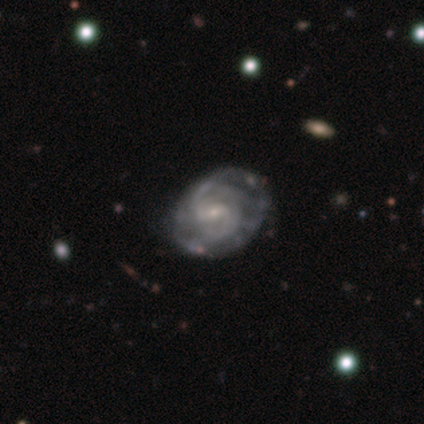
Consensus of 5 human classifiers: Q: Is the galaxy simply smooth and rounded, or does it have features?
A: featured or disk — 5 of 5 (100%).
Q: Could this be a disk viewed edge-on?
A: no — 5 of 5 (100%).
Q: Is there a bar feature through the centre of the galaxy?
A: weak — 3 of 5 (60%).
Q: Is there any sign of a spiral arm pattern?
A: yes — 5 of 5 (100%).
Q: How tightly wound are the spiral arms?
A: medium — 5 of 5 (100%).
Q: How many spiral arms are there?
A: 2 — 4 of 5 (80%).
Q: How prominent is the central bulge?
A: small — 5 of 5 (100%).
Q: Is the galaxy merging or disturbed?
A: none — 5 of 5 (100%).